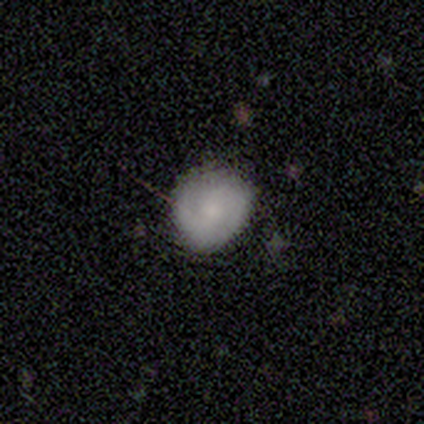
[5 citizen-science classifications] Overall: smooth (60%; featured or disk 40%). How rounded: in between (67%; round 33%). Merging: none (80%).